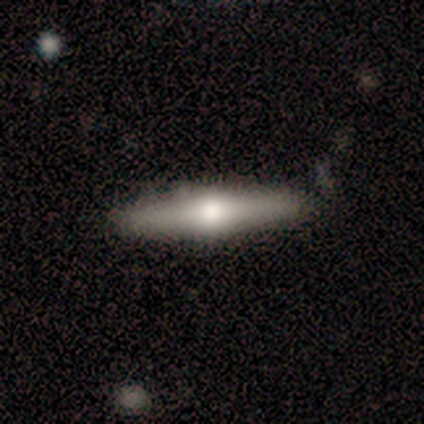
smooth-or-featured: featured or disk: 67% | smooth: 33% | star or artifact: 0%
  disk-edge-on: yes: 100% | no: 0%
    edge-on-bulge: rounded: 100% | boxy: 0% | none: 0%
  merging: none: 100% | minor disturbance: 0% | major disturbance: 0% | merger: 0%